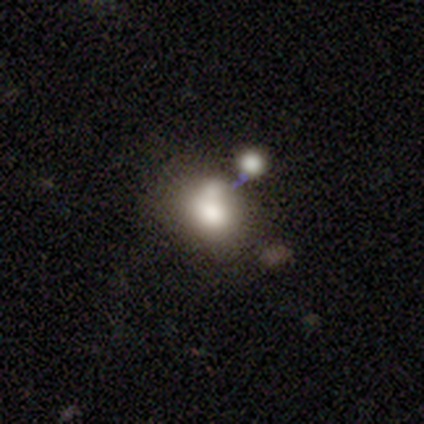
Smooth or featured? smooth (61%)
How rounded? round (55%)
Merging? merger (57%)